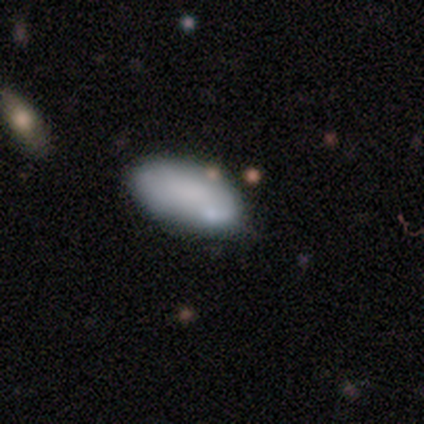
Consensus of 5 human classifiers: Smooth or featured? smooth (100%)
How rounded? in between (100%)
Merging? none (60%)